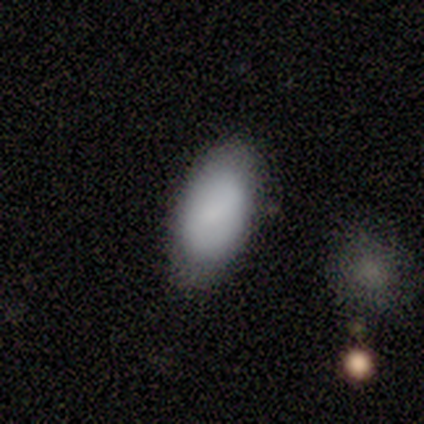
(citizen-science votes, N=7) Overall: smooth (86%). How rounded: in between (100%). Merging: none (86%).